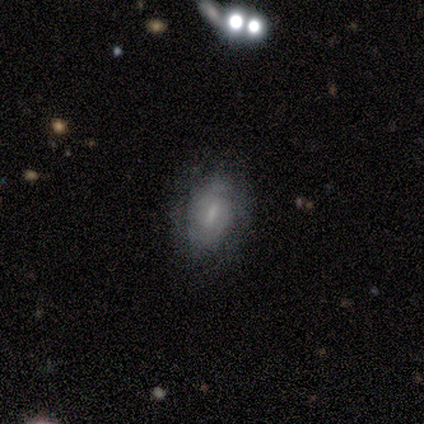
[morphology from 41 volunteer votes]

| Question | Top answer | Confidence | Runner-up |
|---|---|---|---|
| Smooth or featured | featured or disk | 73% | smooth (24%) |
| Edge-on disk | no | 97% | yes (3%) |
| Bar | weak | 62% | strong (24%) |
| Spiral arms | yes | 52% | no (48%) |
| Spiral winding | tight | 60% | medium (33%) |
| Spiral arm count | can't tell | 53% | 2 (47%) |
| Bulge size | small | 41% | none (31%) |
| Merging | none | 72% | minor disturbance (20%) |